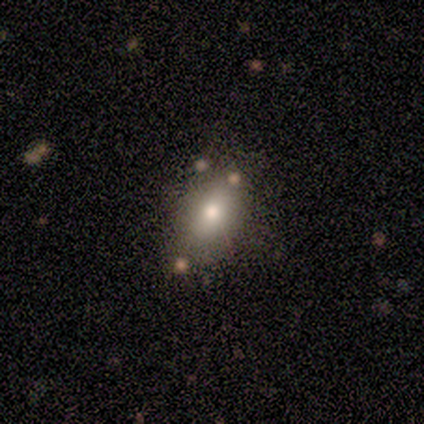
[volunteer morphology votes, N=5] Smooth or featured?
  - smooth: 80% *
  - star or artifact: 20%
  - featured or disk: 0%
How rounded?
  - in between: 50% *
  - round: 25%
  - cigar-shaped: 25%
Merging?
  - none: 75% *
  - minor disturbance: 25%
  - major disturbance: 0%
  - merger: 0%